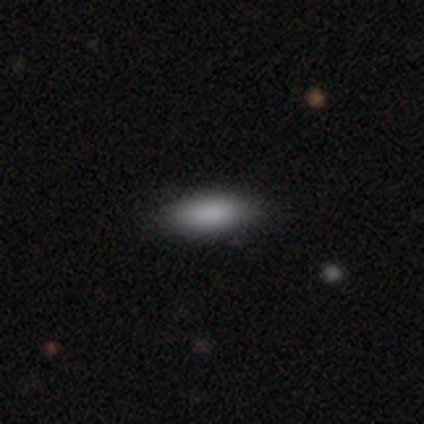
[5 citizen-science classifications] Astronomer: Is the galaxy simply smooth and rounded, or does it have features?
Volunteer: smooth — 100%.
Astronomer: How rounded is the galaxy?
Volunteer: in between — 80%.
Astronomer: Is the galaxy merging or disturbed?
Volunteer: minor disturbance — 60% (runner-up: none, 40%).